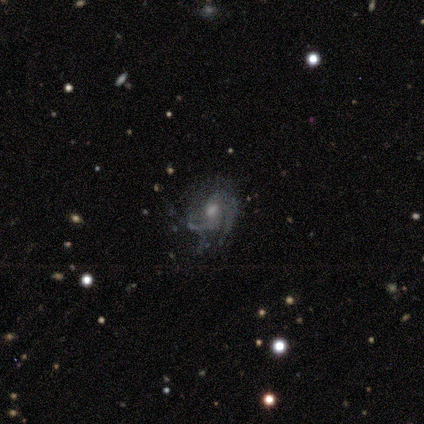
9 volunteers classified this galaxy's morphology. Volunteers were most divided on "spiral winding": medium: 60%, loose: 40%, tight: 0%. More confident: edge-on disk — no (86%); merging — none (86%); spiral arms — yes (83%); spiral arm count — 2 (80%); smooth or featured — featured or disk (78%); bar — no (67%); bulge size — moderate (50%).